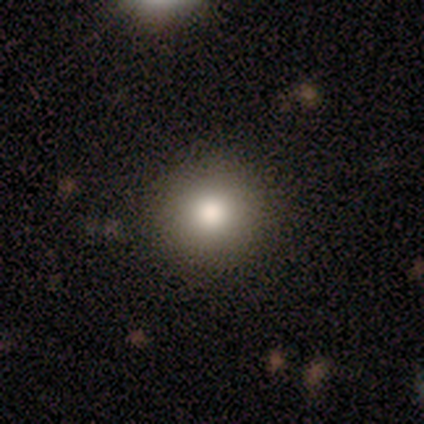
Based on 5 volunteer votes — A smooth galaxy with no disk features (100%) that is round (100%). Merging: none (100%).